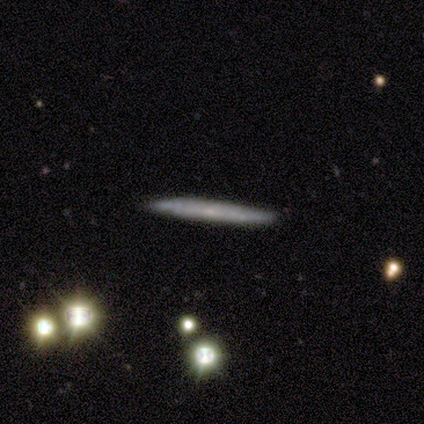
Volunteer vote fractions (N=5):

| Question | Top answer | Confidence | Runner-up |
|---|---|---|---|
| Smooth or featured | featured or disk | 60% | smooth (40%) |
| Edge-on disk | yes | 67% | no (33%) |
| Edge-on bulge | none | 50% | tied: rounded (50%) |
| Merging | none | 80% | major disturbance (20%) |